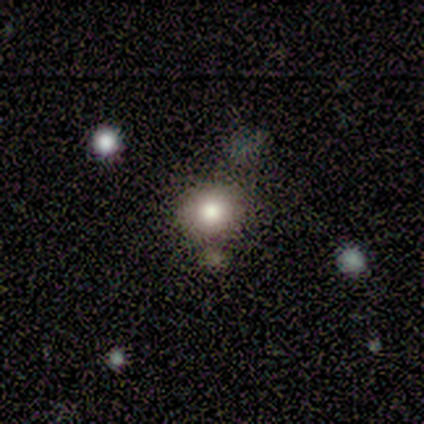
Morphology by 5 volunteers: This appears to be a smooth galaxy with no disk features (60%) that is round (100%). Merging: none (100%).